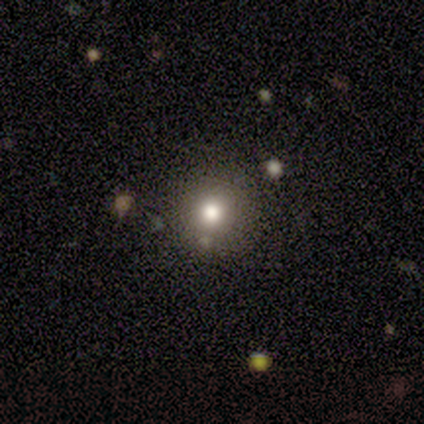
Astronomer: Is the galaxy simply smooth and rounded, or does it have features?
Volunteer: smooth — 80%.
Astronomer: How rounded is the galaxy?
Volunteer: round — 100%.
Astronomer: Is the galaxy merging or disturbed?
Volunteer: none — 80%.